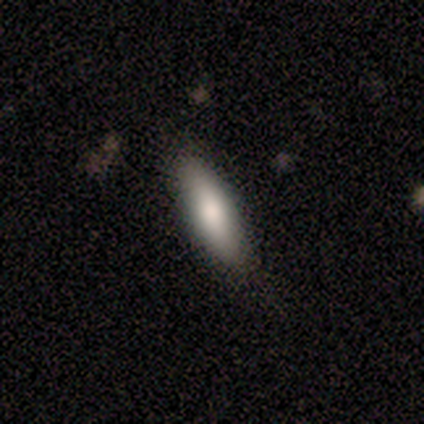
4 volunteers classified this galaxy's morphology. A smooth galaxy with no disk features (50%) that is cigar-shaped (100%).

Vote fractions:
- Smooth or featured? smooth: 50% / featured or disk: 25% / star or artifact: 25%
- How rounded? cigar-shaped: 100% / round: 0% / in between: 0%
- Merging? none: 67% / minor disturbance: 33% / major disturbance: 0% / merger: 0%